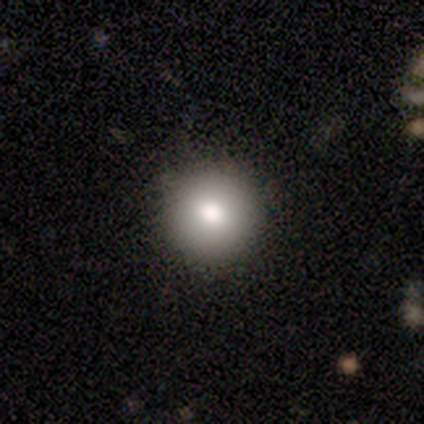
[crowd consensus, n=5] smooth_or_featured: smooth (p=0.60) [alt: featured or disk p=0.40]
how_rounded: round (p=0.67) [alt: in between p=0.33]
merging: none (p=0.80) [alt: minor disturbance p=0.20]